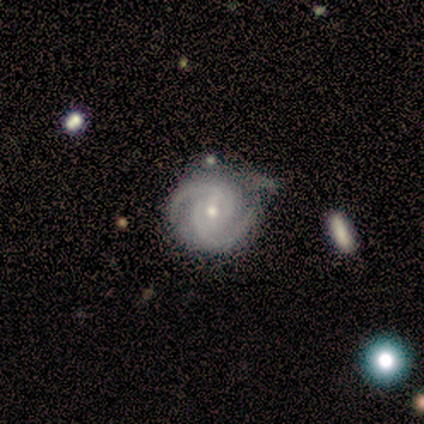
This appears to be a featured or disk galaxy (100%) with a weak bar (80%), 2 (100%) medium (60%) spiral arms (100%) and a small central bulge (80%). Merging: none (40%, tied with minor disturbance).